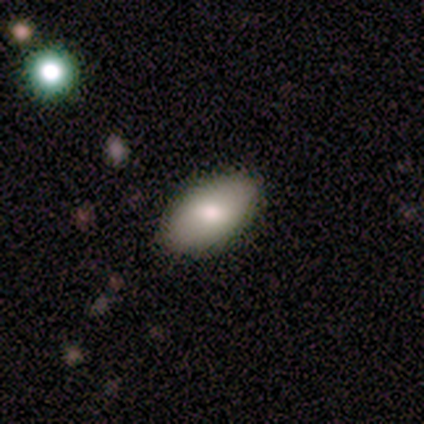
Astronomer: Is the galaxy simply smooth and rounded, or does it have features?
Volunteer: smooth — 79%.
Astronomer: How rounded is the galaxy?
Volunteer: in between — 100%.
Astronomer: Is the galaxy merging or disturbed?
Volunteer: none — 84%.